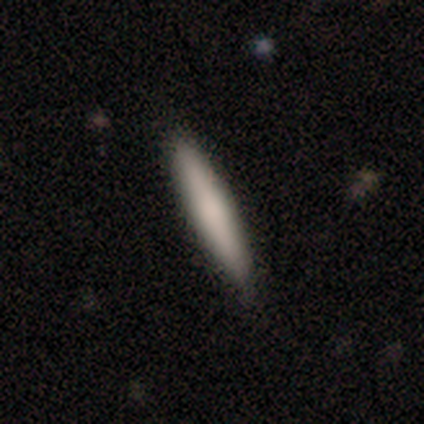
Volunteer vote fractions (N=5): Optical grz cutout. It shows a smooth galaxy with no disk features (100%) that is cigar-shaped (100%). Merging: none (100%).